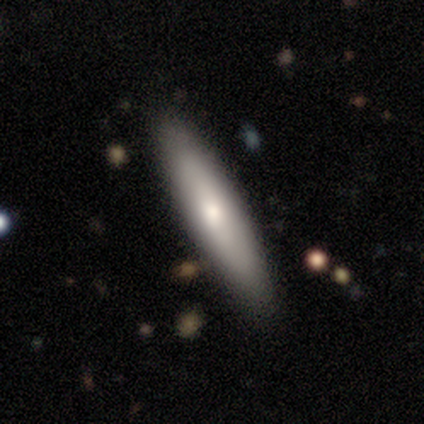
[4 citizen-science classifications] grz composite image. It shows a smooth galaxy with no disk features (75%) that is cigar-shaped (67%). Merging: none (100%).